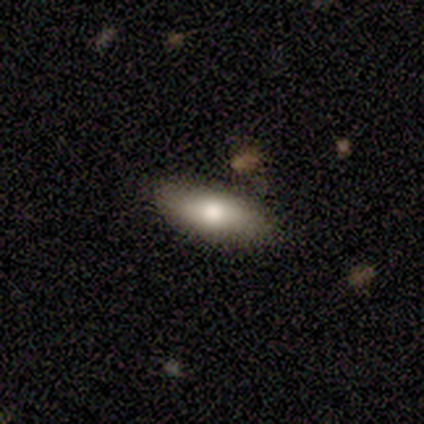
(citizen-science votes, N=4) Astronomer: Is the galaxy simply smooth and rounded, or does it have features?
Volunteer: featured or disk — 75%.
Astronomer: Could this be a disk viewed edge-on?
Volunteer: yes — 67%.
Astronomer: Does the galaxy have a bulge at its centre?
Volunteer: rounded — 100%.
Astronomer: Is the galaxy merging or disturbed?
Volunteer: none — 100%.